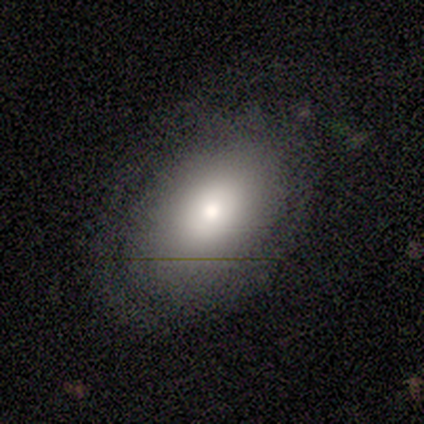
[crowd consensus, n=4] A featured or disk galaxy (75%) with no bar (100%), 1 (50%, tied with can't tell) tight (100%) spiral arms (67%) and a large central bulge (33%, tied with moderate and small). Merging: none (75%).